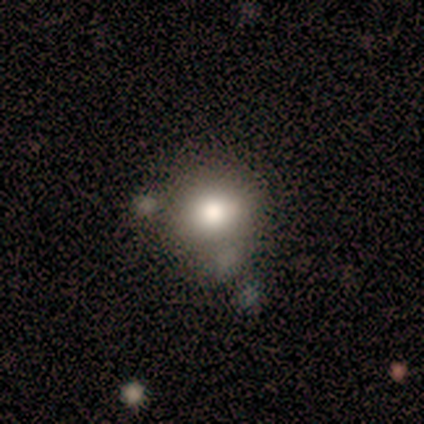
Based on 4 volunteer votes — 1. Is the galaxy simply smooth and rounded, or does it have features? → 50% smooth (tied), 50% star or artifact (tied), 0% featured or disk.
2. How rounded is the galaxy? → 50% round (tied), 50% in between (tied), 0% cigar-shaped.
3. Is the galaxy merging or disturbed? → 100% none, 0% minor disturbance, 0% major disturbance, 0% merger.